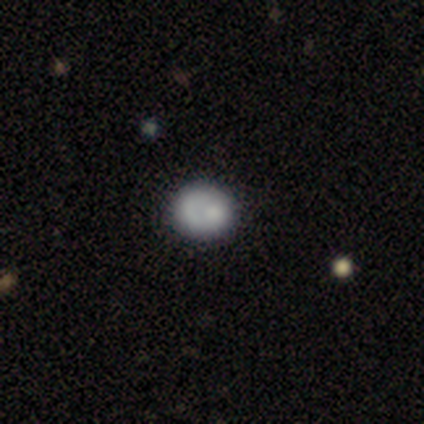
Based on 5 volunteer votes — This is clearly a smooth galaxy (80%). How rounded: likely round (75%). Merging: clearly none (80%).